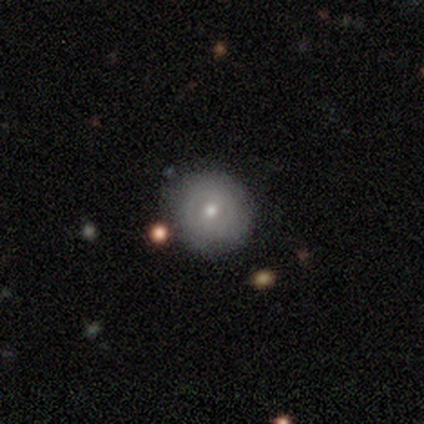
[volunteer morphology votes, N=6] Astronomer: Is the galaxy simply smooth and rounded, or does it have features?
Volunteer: smooth — 50%, tied with featured or disk at 50%.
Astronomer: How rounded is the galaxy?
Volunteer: round — 100%.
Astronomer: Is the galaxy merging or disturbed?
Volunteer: none — 83%.